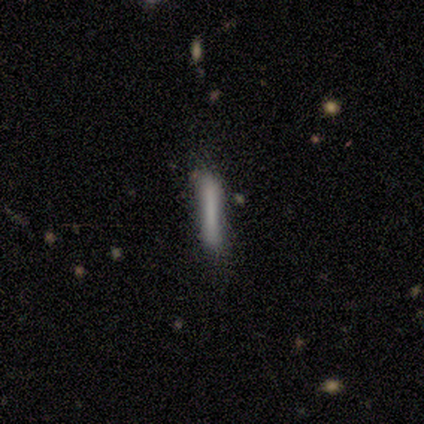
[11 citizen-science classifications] A smooth galaxy with no disk features (73%) that is cigar-shaped (100%).

Vote fractions:
- Smooth or featured? smooth: 73% / featured or disk: 27% / star or artifact: 0%
- How rounded? cigar-shaped: 100% / round: 0% / in between: 0%
- Merging? none: 82% / minor disturbance: 18% / major disturbance: 0% / merger: 0%